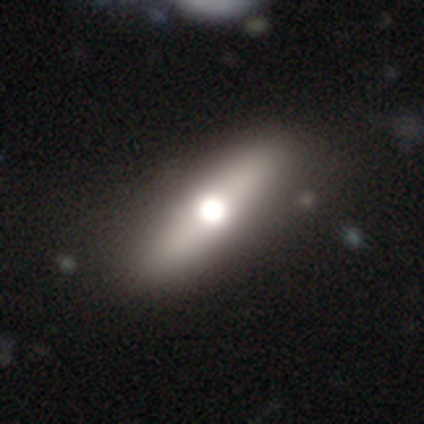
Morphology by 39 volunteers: Overall: smooth (51%; featured or disk 46%). How rounded: cigar-shaped (60%; in between 40%). Merging: none (68%).